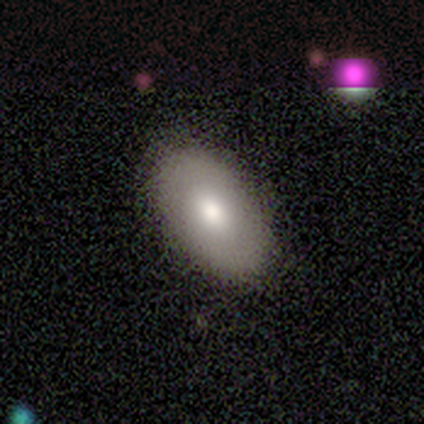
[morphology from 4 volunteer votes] smooth-or-featured: smooth: 50% | featured or disk: 25% | star or artifact: 25%
  how-rounded: in between: 50% (tied) | cigar-shaped: 50% (tied) | round: 0%
  merging: none: 100% | minor disturbance: 0% | major disturbance: 0% | merger: 0%